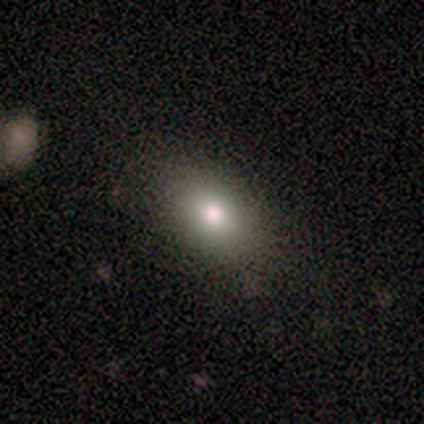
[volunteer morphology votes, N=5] Overall: smooth (60%; featured or disk 20%). How rounded: in between (100%). Merging: none (100%).